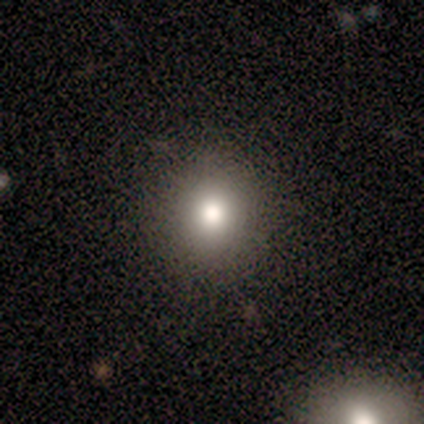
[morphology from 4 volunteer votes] Smooth or featured? 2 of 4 (50%) said star or artifact.